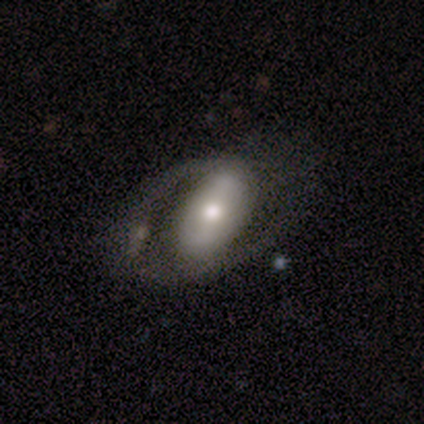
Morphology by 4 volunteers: smooth-or-featured: smooth: 50% (tied) | featured or disk: 50% (tied) | star or artifact: 0%
  how-rounded: in between: 100% | round: 0% | cigar-shaped: 0%
  merging: none: 50% | minor disturbance: 25% | major disturbance: 25% | merger: 0%